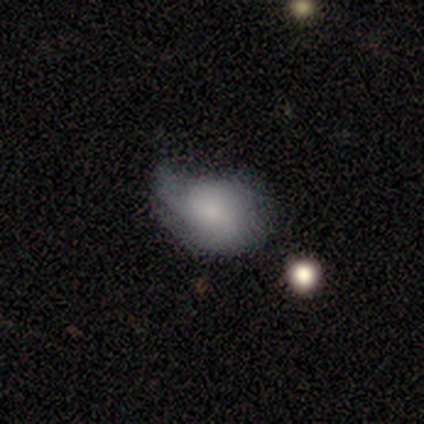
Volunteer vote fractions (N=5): smooth_or_featured: smooth (p=0.60) [alt: featured or disk p=0.40]
how_rounded: in between (p=0.67) [alt: round p=0.33]
merging: minor disturbance (p=0.60) [alt: major disturbance p=0.40]